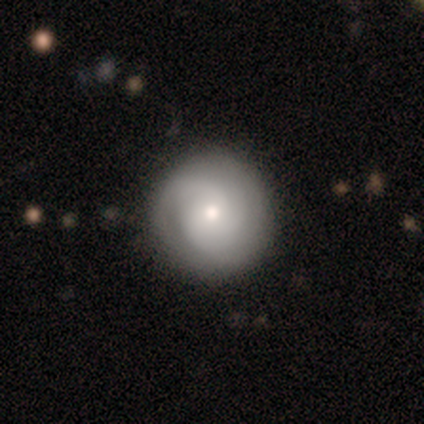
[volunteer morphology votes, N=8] smooth 62%, featured or disk 38%, star or artifact 0%. Down the decision tree: how rounded — round (100%); merging — none (100%).